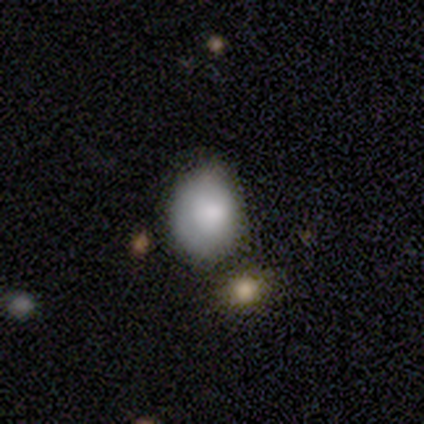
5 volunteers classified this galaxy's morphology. smooth-or-featured: featured or disk: 60% | smooth: 40% | star or artifact: 0%
  disk-edge-on: no: 100% | yes: 0%
    bar: no: 100% | strong: 0% | weak: 0%
    has-spiral-arms: no: 100% | yes: 0%
    bulge-size: dominant: 33% (tied) | moderate: 33% (tied) | small: 33% (tied) | large: 0% | none: 0%
  merging: minor disturbance: 60% | major disturbance: 20% | merger: 20% | none: 0%